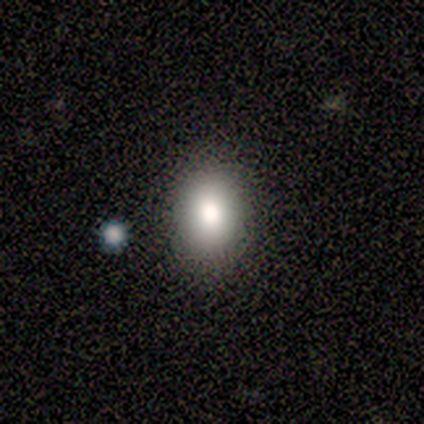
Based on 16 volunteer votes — Overall: smooth (75%). How rounded: in between (75%). Merging: none (85%).